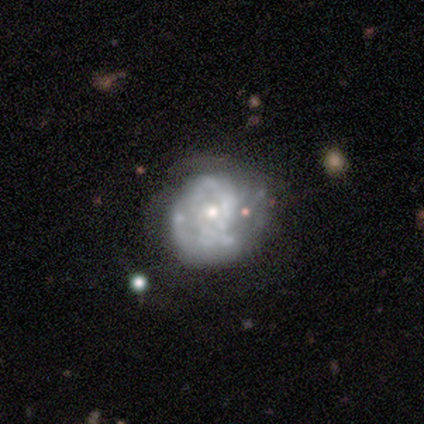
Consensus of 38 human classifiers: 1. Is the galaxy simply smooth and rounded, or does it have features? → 68% featured or disk, 21% smooth, 11% star or artifact.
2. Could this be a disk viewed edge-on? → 88% no, 12% yes.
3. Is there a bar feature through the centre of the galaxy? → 91% no, 9% weak, 0% strong.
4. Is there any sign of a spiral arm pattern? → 52% yes, 48% no.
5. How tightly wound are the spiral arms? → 67% tight, 25% medium, 8% loose.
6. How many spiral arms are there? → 67% can't tell, 25% 2, 8% 4, 0% 1, 0% 3, 0% more than 4.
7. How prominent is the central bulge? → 48% moderate (tied), 48% small (tied), 4% dominant, 0% large, 0% none.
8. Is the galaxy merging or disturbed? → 65% none, 24% minor disturbance, 9% major disturbance, 3% merger.